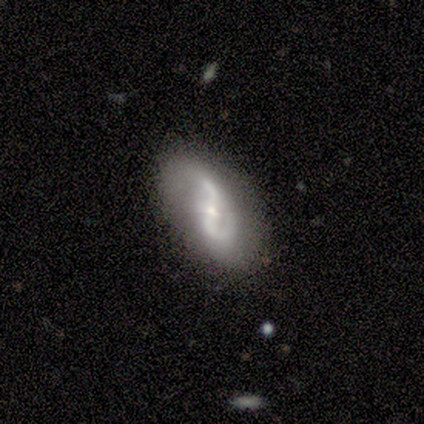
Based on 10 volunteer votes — Volunteers were most divided on "spiral winding" (2-way tie): medium: 44%, loose: 44%, tight: 11%. More confident: smooth or featured — featured or disk (100%); edge-on disk — no (100%); spiral arms — yes (90%); spiral arm count — 2 (89%); merging — none (80%); bar — strong (70%); bulge size — small (50%).